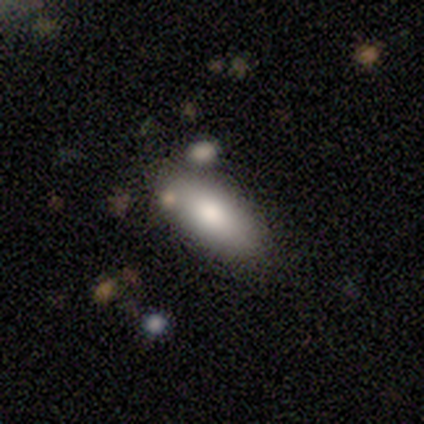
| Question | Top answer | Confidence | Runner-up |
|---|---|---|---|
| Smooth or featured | smooth | 67% | featured or disk (33%) |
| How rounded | in between | 100% | — |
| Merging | none | 100% | — |